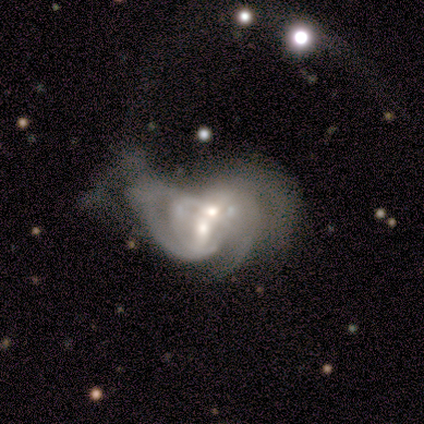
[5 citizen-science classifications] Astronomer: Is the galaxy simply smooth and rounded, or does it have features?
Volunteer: featured or disk — 60% (runner-up: smooth, 40%).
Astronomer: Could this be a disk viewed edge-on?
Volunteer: no — 100%.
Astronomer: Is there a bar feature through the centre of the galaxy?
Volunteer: strong — 33%, tied with weak and no at 33%.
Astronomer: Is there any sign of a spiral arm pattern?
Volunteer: yes — 100%.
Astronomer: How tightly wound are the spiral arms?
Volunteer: loose — 100%.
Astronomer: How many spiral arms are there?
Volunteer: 2 — 33%, tied with 3 and can't tell at 33%.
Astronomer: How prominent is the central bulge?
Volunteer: moderate — 100%.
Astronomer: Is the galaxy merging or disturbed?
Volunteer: merger — 80%.